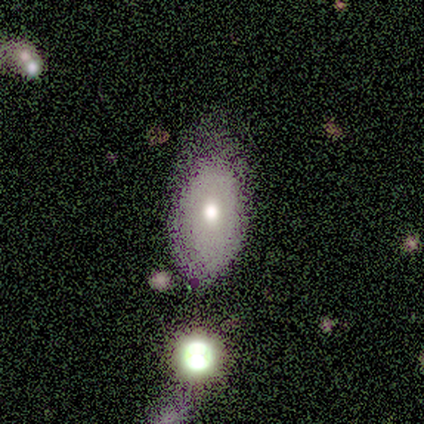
smooth-or-featured: smooth: 60% | featured or disk: 40% | star or artifact: 0%
  how-rounded: in between: 100% | round: 0% | cigar-shaped: 0%
  merging: none: 60% | minor disturbance: 40% | major disturbance: 0% | merger: 0%